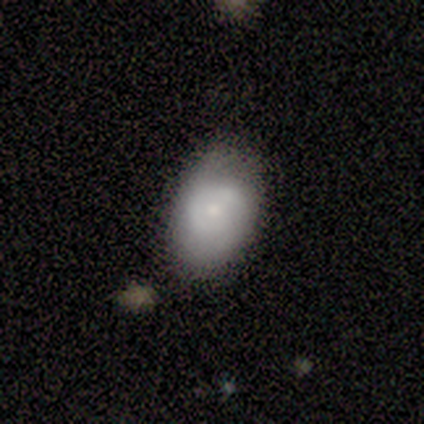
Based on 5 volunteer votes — Smooth or featured? smooth (80%)
How rounded? in between (100%)
Merging? none (80%)